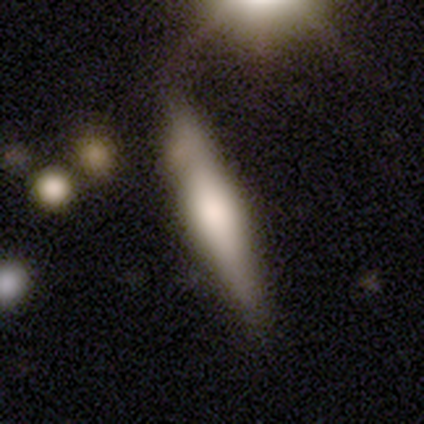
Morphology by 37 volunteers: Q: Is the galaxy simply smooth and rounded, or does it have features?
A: featured or disk — 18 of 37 (49%).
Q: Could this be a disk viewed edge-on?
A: yes — 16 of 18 (89%).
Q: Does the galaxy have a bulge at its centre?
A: rounded — 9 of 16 (56%).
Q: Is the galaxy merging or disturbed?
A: none — 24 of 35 (69%).